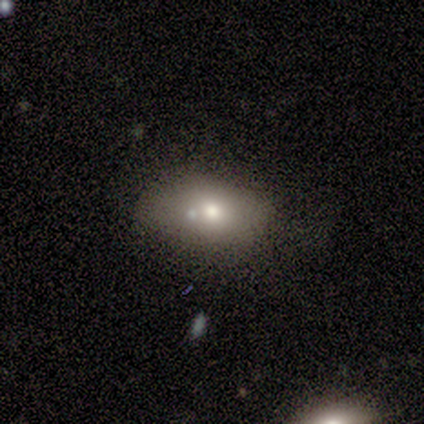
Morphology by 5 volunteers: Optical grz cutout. It shows a smooth galaxy with no disk features (80%) that is in between round and cigar-shaped (100%). Merging: none (75%).